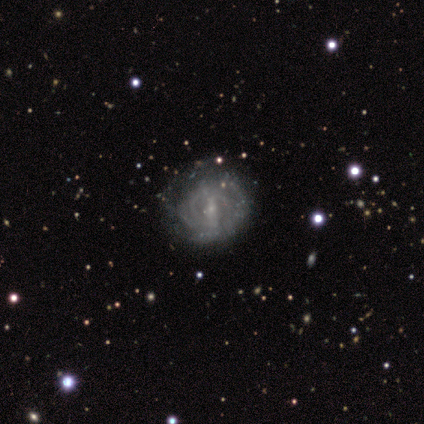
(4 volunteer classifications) This appears to be a featured or disk galaxy (100%) with a weak bar (50%, tied with no), tight (100%) spiral arms (75%) and a small central bulge (75%). Merging: none (100%).